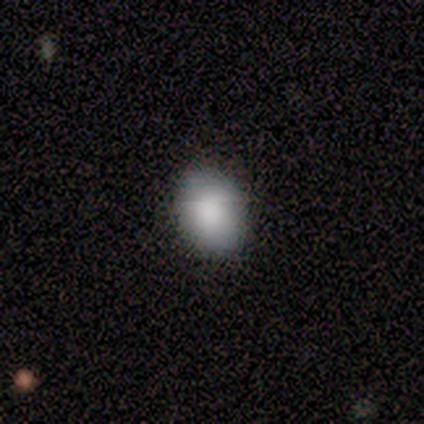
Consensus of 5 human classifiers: smooth-or-featured: smooth: 80% | featured or disk: 20% | star or artifact: 0%
  how-rounded: in between: 75% | round: 25% | cigar-shaped: 0%
  merging: none: 80% | minor disturbance: 20% | major disturbance: 0% | merger: 0%